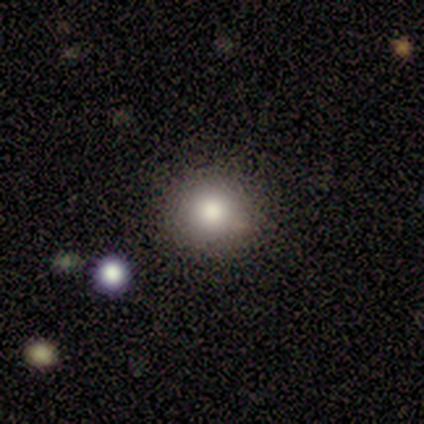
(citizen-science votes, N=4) smooth 75%, star or artifact 25%, featured or disk 0%. Down the decision tree: how rounded — round (100%); merging — none (100%).